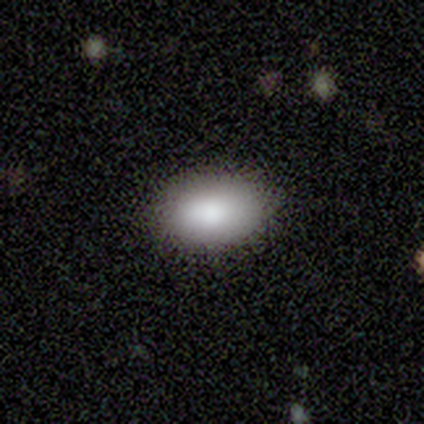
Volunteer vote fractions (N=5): Overall: smooth (100%). How rounded: in between (100%). Merging: none (100%).